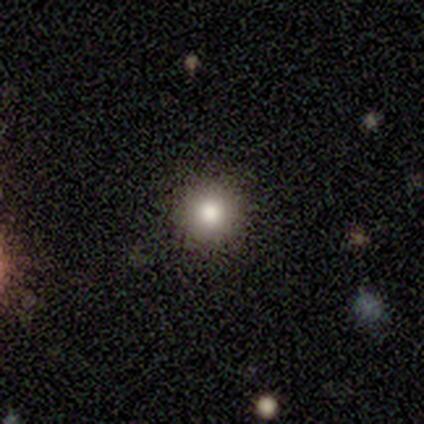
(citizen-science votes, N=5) A smooth galaxy with no disk features (80%) that is round (100%). Merging: none (100%).